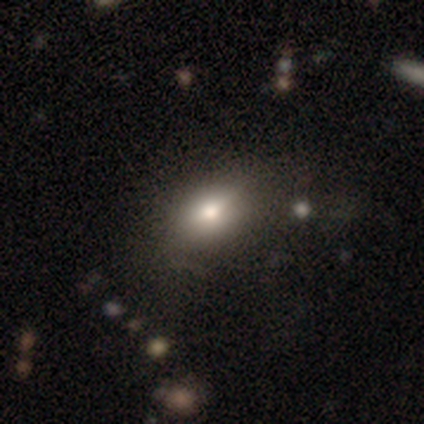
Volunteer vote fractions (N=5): Q: Smooth or featured?
A: smooth (60%); runner-up: featured or disk (20%)
Q: How rounded?
A: in between (100%)
Q: Merging?
A: none (75%); runner-up: major disturbance (25%)